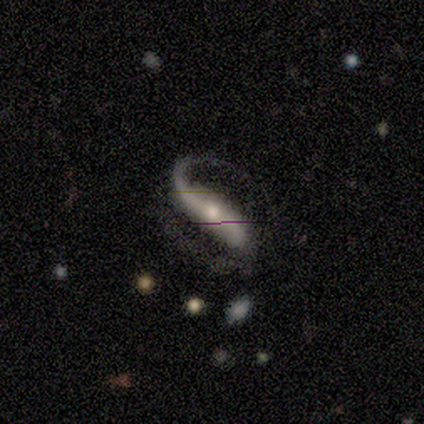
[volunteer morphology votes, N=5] featured or disk 100%, smooth 0%, star or artifact 0%. Down the decision tree: edge-on disk — no (100%); bar — weak (60%); spiral arms — yes (100%); spiral arm count — 2 (100%); spiral winding — loose (60%); bulge size — small (80%); merging — none (80%).